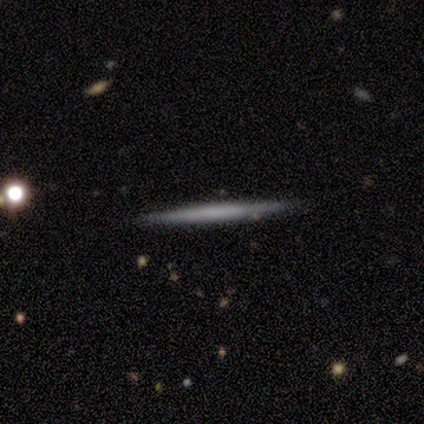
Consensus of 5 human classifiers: Q: Smooth or featured?
A: featured or disk (60%); runner-up: smooth (40%)
Q: Edge-on disk?
A: yes (100%)
Q: Edge-on bulge?
A: none (100%)
Q: Merging?
A: none (100%)